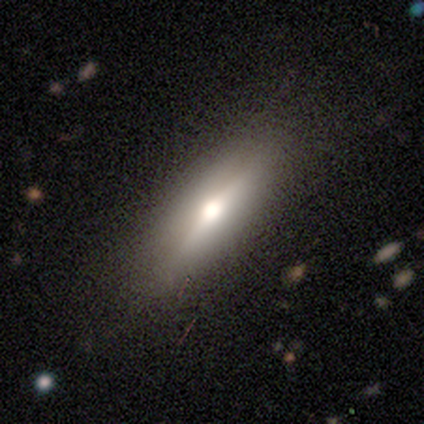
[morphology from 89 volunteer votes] Smooth or featured? 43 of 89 (48%) said smooth. How rounded? 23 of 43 (53%) said in between. Merging? 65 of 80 (81%) said none.